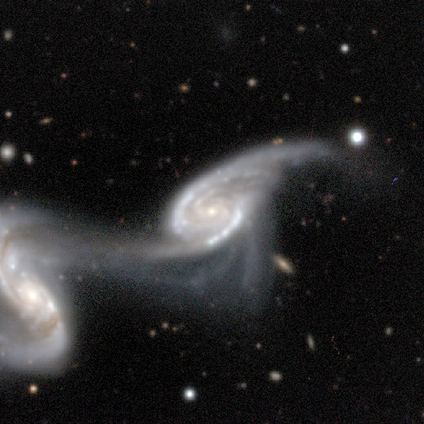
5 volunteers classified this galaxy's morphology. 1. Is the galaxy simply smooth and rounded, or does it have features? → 100% featured or disk, 0% smooth, 0% star or artifact.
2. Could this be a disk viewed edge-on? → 80% no, 20% yes.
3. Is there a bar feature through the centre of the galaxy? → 75% strong, 25% no, 0% weak.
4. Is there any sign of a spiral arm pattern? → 100% yes, 0% no.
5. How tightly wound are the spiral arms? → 75% tight, 25% medium, 0% loose.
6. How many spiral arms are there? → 50% 2, 25% 3, 25% 4, 0% 1, 0% more than 4, 0% can't tell.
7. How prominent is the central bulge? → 75% small, 25% none, 0% dominant, 0% large, 0% moderate.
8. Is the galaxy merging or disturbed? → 80% merger, 20% major disturbance, 0% none, 0% minor disturbance.